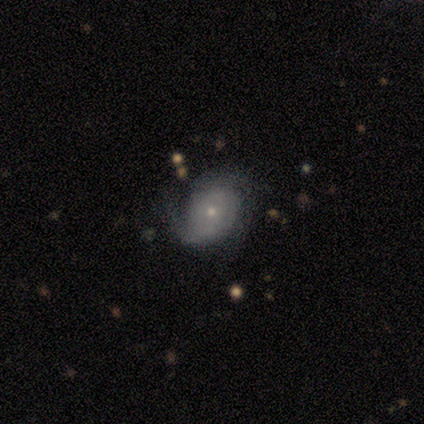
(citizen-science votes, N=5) Q: Smooth or featured?
A: featured or disk (80%); runner-up: star or artifact (20%)
Q: Edge-on disk?
A: no (75%); runner-up: yes (25%)
Q: Bar?
A: no (100%)
Q: Spiral arms?
A: yes (100%)
Q: Spiral winding?
A: tight (67%); runner-up: medium (33%)
Q: Spiral arm count?
A: 1 (33%); tied with: 3 (33%); can't tell (33%)
Q: Bulge size?
A: small (100%)
Q: Merging?
A: none (50%); tied with: minor disturbance (50%)